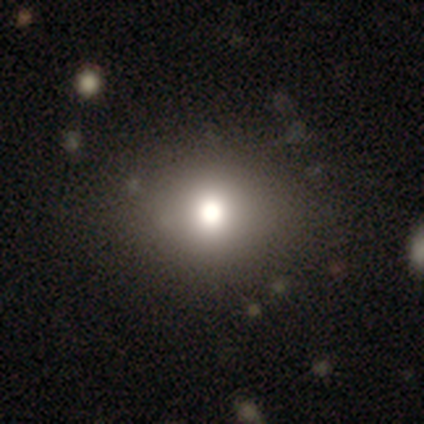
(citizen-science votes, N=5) smooth 80%, star or artifact 20%, featured or disk 0%. Down the decision tree: how rounded — round (75%); merging — none (100%).